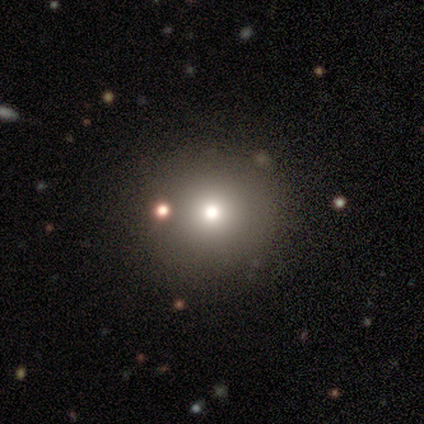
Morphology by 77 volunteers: type=smooth (77%); roundness=round (97%); merging=none (43%).